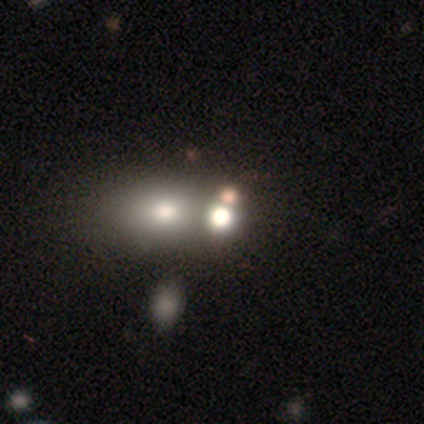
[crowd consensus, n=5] smooth 40% (tied), star or artifact 40% (tied), featured or disk 20%. Down the decision tree: how rounded — round (100%); merging — none (100%).